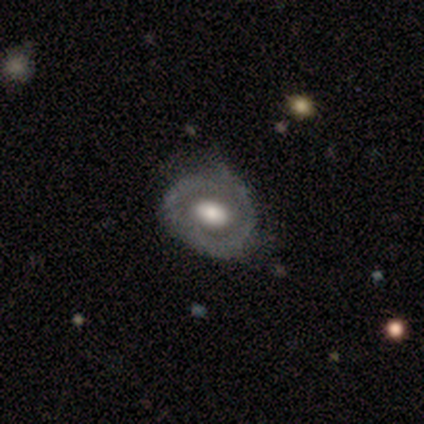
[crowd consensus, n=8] Q: Smooth or featured?
A: featured or disk (75%); runner-up: smooth (12%)
Q: Edge-on disk?
A: no (100%)
Q: Bar?
A: no (100%)
Q: Spiral arms?
A: no (100%)
Q: Bulge size?
A: large (67%); runner-up: dominant (17%)
Q: Merging?
A: none (71%); runner-up: minor disturbance (29%)